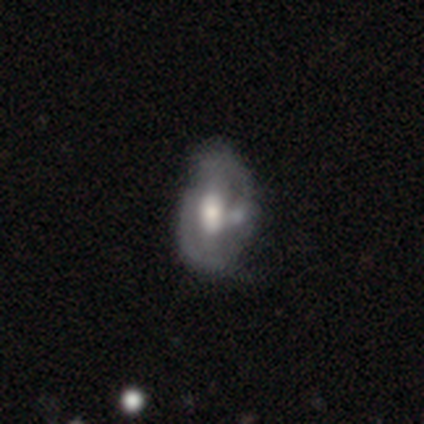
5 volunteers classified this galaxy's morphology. Overall: smooth (80%). How rounded: in between (75%). Merging: none (40%, tied with major disturbance).